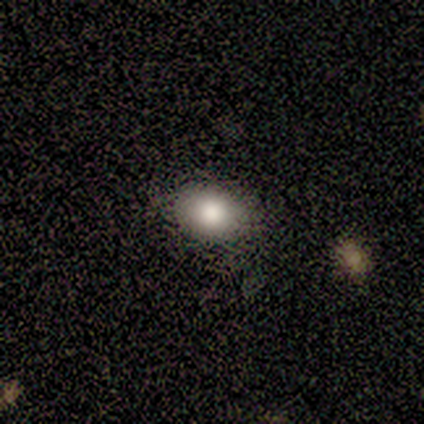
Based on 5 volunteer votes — smooth-or-featured: smooth: 80% | star or artifact: 20% | featured or disk: 0%
  how-rounded: round: 50% (tied) | in between: 50% (tied) | cigar-shaped: 0%
  merging: none: 100% | minor disturbance: 0% | major disturbance: 0% | merger: 0%